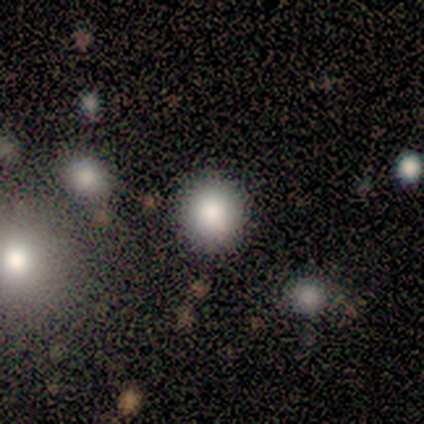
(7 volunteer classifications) Smooth or featured?
  - smooth: 100% *
  - featured or disk: 0%
  - star or artifact: 0%
How rounded?
  - round: 100% *
  - in between: 0%
  - cigar-shaped: 0%
Merging?
  - none: 100% *
  - minor disturbance: 0%
  - major disturbance: 0%
  - merger: 0%